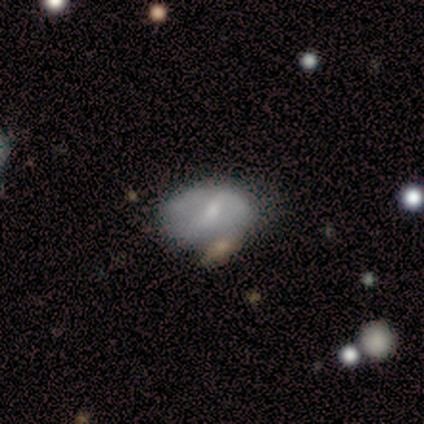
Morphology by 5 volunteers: Overall: featured or disk (60%; smooth 40%). Edge-on disk: no (67%; yes 33%). Bar: weak (50%, tied with no). Spiral arms: yes (50%, tied with no). Spiral arm count: 2 (100%). Spiral winding: loose (100%). Bulge size: moderate (50%, tied with small). Merging: none (60%; merger 40%).